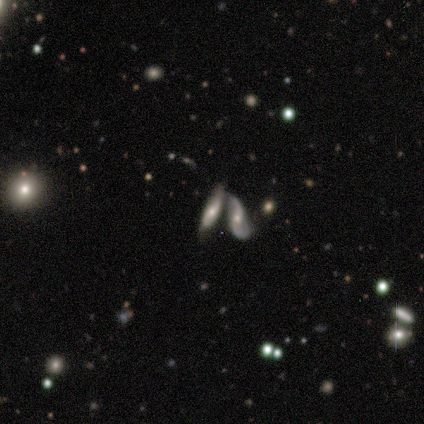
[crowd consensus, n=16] This appears to be a featured or disk galaxy (62%) viewed edge-on (50%, tied with no) with a rounded central bulge (80%). Merging: merger (60%).